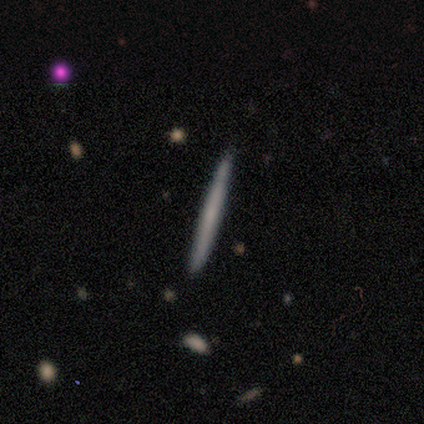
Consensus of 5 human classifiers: Smooth or featured? smooth (60%)
How rounded? cigar-shaped (100%)
Merging? none (80%)